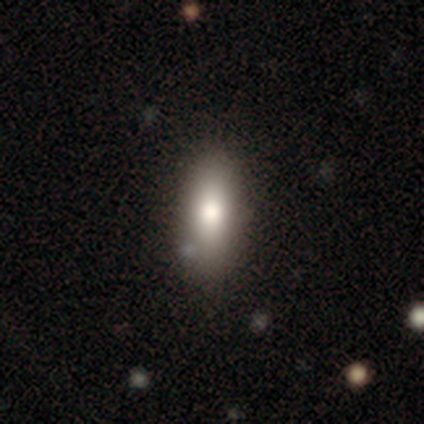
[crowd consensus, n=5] Smooth or featured: smooth — 80% (featured or disk — 20%)
How rounded: in between — 100%
Merging: none — 60% (minor disturbance — 20%)